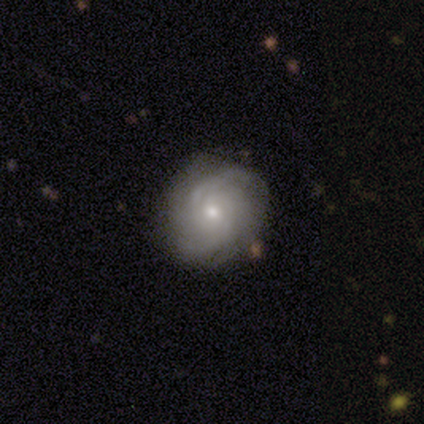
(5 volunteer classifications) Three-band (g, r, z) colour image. It shows a featured or disk galaxy (100%) with no bar (80%), 2 (40%) tight (40%, tied with loose) spiral arms (100%) and a moderate central bulge (60%). Merging: none (100%).